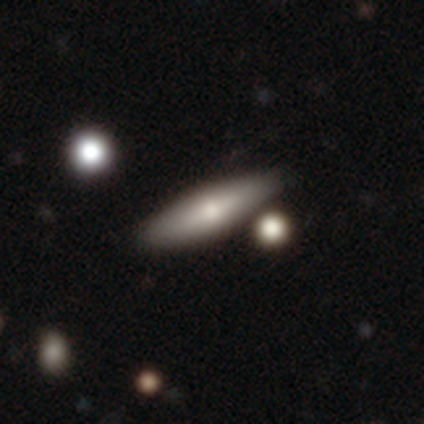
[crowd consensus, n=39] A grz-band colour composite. It shows a smooth galaxy with no disk features (62%) that is cigar-shaped (75%). Merging: none (82%).